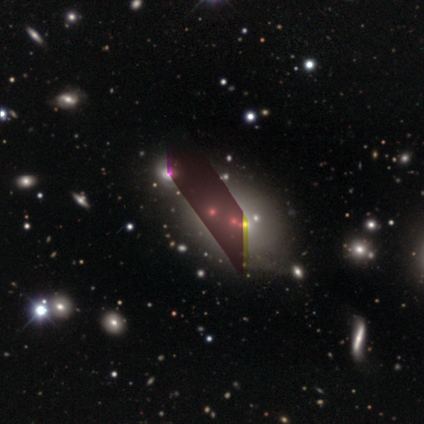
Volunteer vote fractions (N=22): This appears to be a star or artifact, not a galaxy (55%).